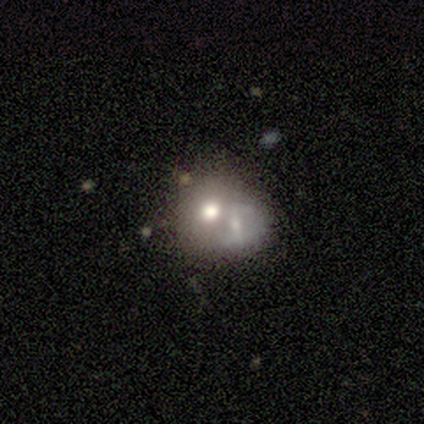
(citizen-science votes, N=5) A featured or disk galaxy (60%) with no bar (100%), no spiral arms (100%) and a moderate central bulge (67%). Merging: merger (50%).